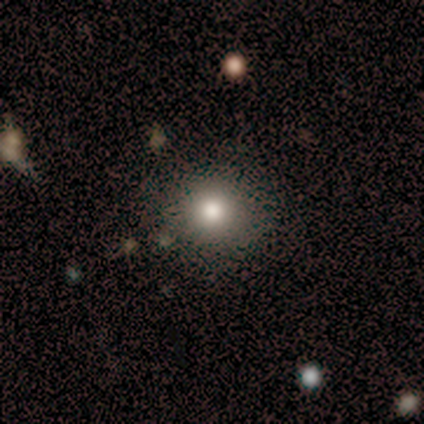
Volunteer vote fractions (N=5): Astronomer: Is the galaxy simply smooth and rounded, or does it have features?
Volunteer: smooth — 60%.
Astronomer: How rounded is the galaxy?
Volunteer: round — 100%.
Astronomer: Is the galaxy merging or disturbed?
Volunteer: none — 50%, tied with minor disturbance at 50%.